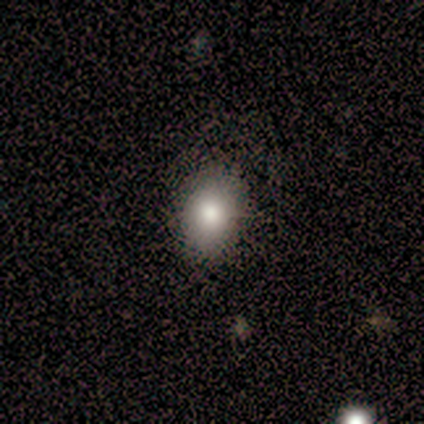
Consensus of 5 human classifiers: Q: Smooth or featured?
A: featured or disk (40%); tied with: star or artifact (40%)
Q: Edge-on disk?
A: no (100%)
Q: Bar?
A: no (100%)
Q: Spiral arms?
A: no (100%)
Q: Bulge size?
A: large (50%); tied with: moderate (50%)
Q: Merging?
A: none (100%)